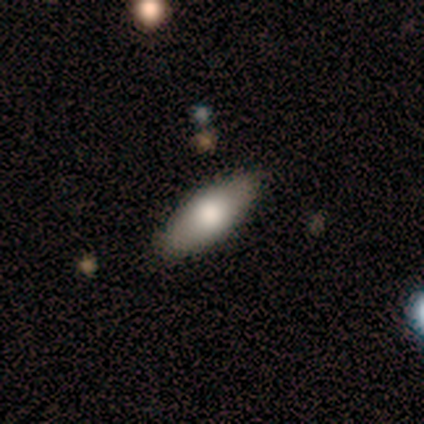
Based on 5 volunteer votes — Q: Smooth or featured?
A: smooth (60%); runner-up: featured or disk (40%)
Q: How rounded?
A: in between (67%); runner-up: cigar-shaped (33%)
Q: Merging?
A: none (100%)